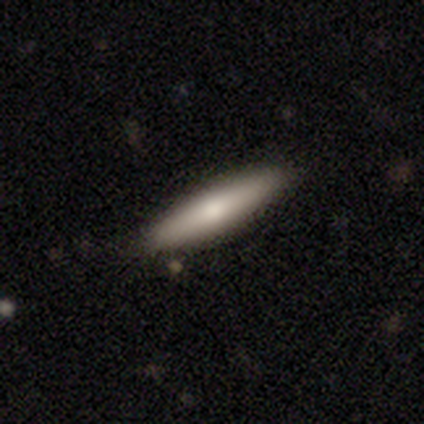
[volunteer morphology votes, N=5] This is clearly a featured or disk galaxy (80%). It is clearly viewed edge-on (100%). Edge-on bulge: likely rounded (75%). Merging: clearly none (80%).